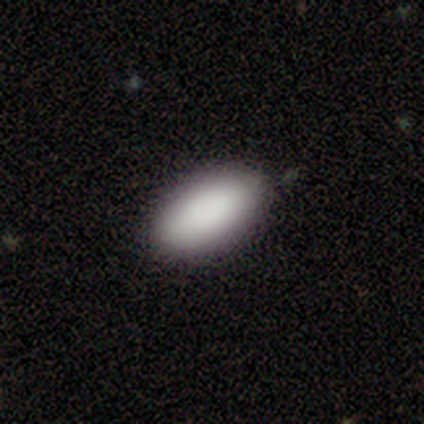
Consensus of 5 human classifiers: Overall: smooth (100%). How rounded: in between (80%). Merging: none (100%).